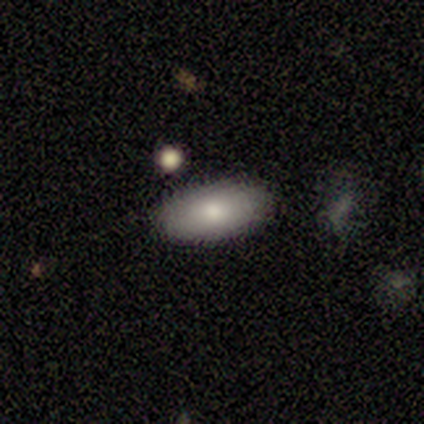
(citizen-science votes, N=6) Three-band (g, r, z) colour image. It shows a smooth galaxy with no disk features (100%) that is in between round and cigar-shaped (100%). Merging: none (100%).